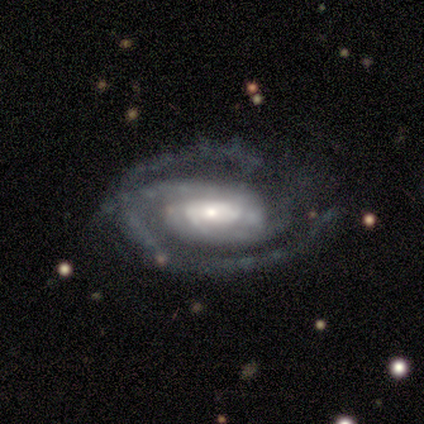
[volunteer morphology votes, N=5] A featured or disk galaxy (80%) with a strong bar (50%), 1 (25%, tied with 2, 3 and can't tell) tight (100%) spiral arms (100%) and a large central bulge (25%, tied with moderate, small and none). Merging: none (100%).